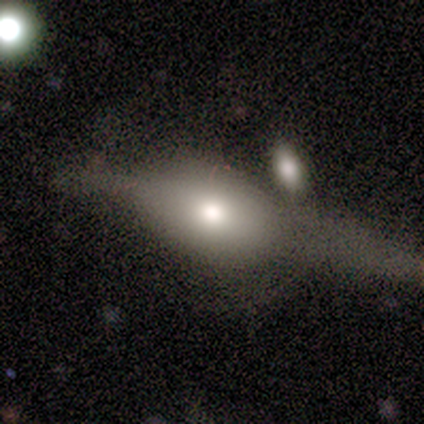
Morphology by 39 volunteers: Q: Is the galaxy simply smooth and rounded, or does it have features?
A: featured or disk — 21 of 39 (54%).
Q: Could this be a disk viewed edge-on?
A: yes — 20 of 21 (95%).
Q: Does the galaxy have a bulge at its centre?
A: rounded — 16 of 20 (80%).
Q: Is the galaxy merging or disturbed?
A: none — 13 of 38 (34%).